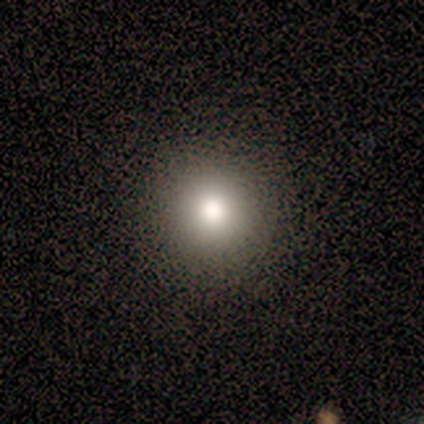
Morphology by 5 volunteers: type=smooth (60%); roundness=round (100%); merging=none (100%).